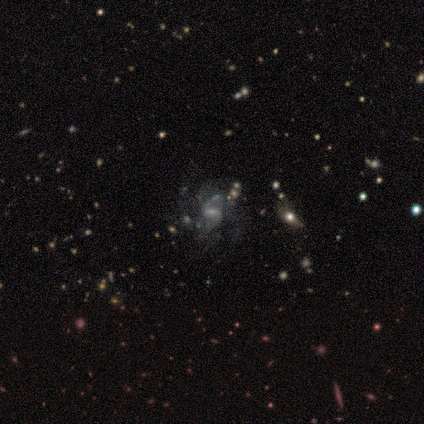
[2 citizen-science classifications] smooth_or_featured: featured or disk (p=1.00)
disk_edge_on: no (p=1.00)
bar: strong (p=0.50) [tied with: weak p=0.50]
has_spiral_arms: yes (p=1.00)
spiral_winding: loose (p=1.00)
spiral_arm_count: 2 (p=1.00)
bulge_size: small (p=1.00)
merging: none (p=1.00)